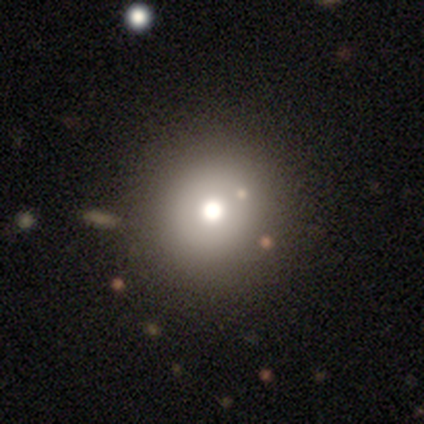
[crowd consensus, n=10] A smooth galaxy with no disk features (70%) that is round (86%).

Vote fractions:
- Smooth or featured? smooth: 70% / star or artifact: 20% / featured or disk: 10%
- How rounded? round: 86% / in between: 14% / cigar-shaped: 0%
- Merging? none: 75% / minor disturbance: 12% / major disturbance: 12% / merger: 0%